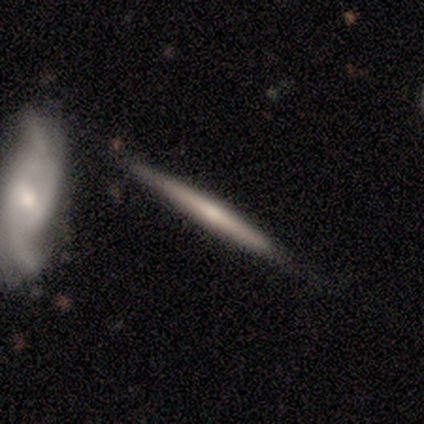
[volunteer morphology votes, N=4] A smooth galaxy with no disk features (50%, tied with featured or disk) that is cigar-shaped (100%).

Vote fractions:
- Smooth or featured? smooth: 50% (tied) / featured or disk: 50% (tied) / star or artifact: 0%
- How rounded? cigar-shaped: 100% / round: 0% / in between: 0%
- Merging? none: 75% / minor disturbance: 25% / major disturbance: 0% / merger: 0%